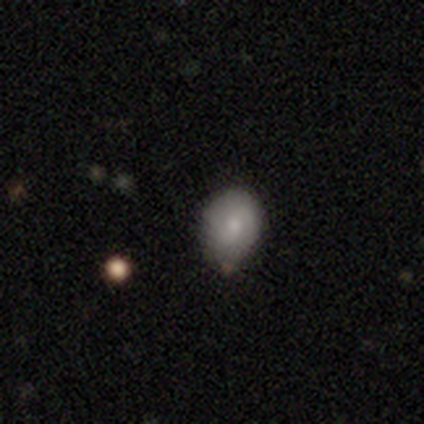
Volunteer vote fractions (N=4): smooth-or-featured: smooth: 50% (tied) | featured or disk: 50% (tied) | star or artifact: 0%
  how-rounded: round: 100% | in between: 0% | cigar-shaped: 0%
  merging: none: 50% (tied) | minor disturbance: 50% (tied) | major disturbance: 0% | merger: 0%